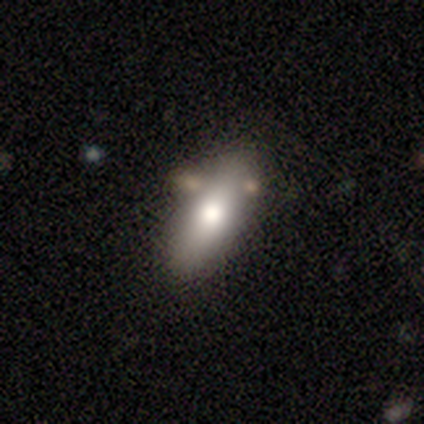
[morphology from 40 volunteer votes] This appears to be a smooth galaxy with no disk features (62%) that is in between round and cigar-shaped (88%). Merging: none (54%).